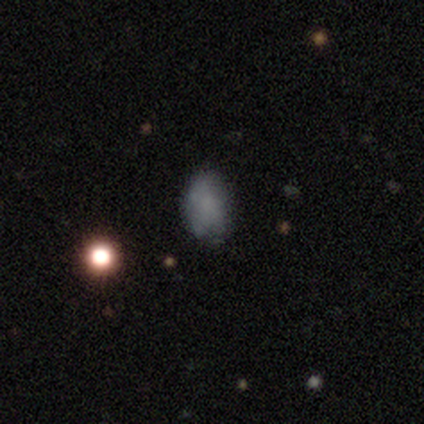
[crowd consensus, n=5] Overall: smooth (100%). How rounded: in between (80%). Merging: none (60%; minor disturbance 40%).